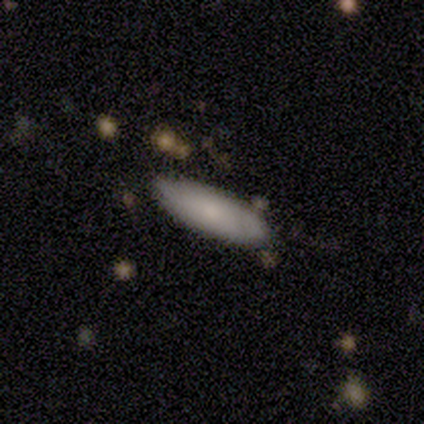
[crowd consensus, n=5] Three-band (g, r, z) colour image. It shows a smooth galaxy with no disk features (80%) that is in between round and cigar-shaped (75%). Merging: none (40%, tied with minor disturbance).